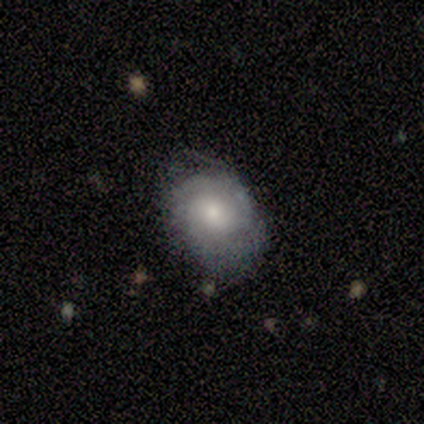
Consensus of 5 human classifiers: A smooth galaxy with no disk features (60%) that is round (67%). Merging: none (60%).